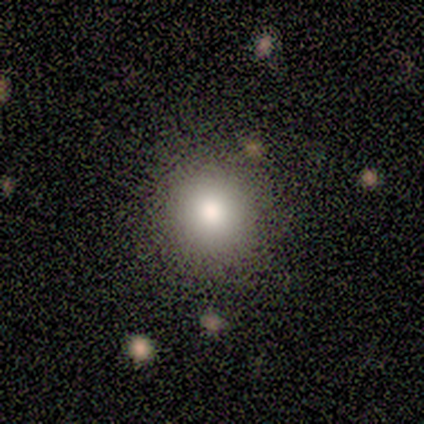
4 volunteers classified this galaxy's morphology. type=smooth (100%); roundness=round (100%); merging=none (100%).